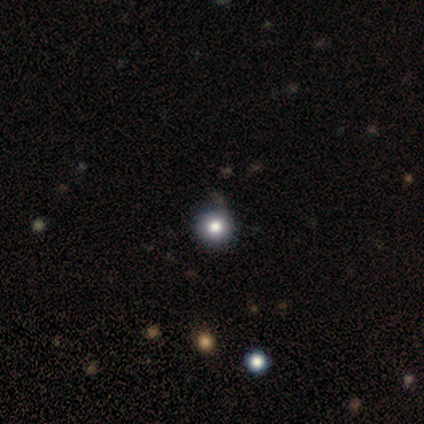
A smooth galaxy with no disk features (60%) that is round (100%). Merging: none (100%).